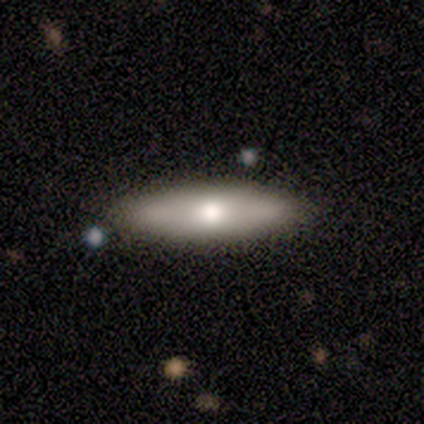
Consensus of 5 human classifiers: smooth_or_featured: smooth (p=0.60) [alt: featured or disk p=0.40]
how_rounded: cigar-shaped (p=0.67) [alt: in between p=0.33]
merging: none (p=0.40) [tied with: minor disturbance p=0.40]